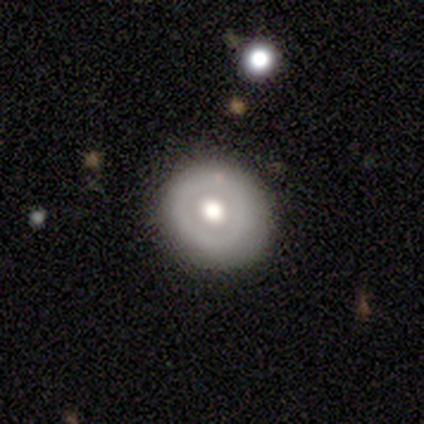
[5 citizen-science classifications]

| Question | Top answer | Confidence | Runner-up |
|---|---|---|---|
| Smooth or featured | featured or disk | 80% | smooth (20%) |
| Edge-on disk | no | 100% | — |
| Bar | no | 100% | — |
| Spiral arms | no | 100% | — |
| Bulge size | large | 50% | tied: moderate (50%) |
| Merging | none | 100% | — |